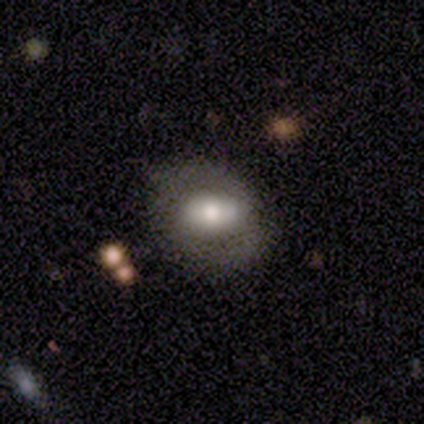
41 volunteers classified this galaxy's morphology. A featured or disk galaxy (66%) with a strong bar (68%), no spiral arms (60%) and a moderate central bulge (40%). Merging: none (80%).